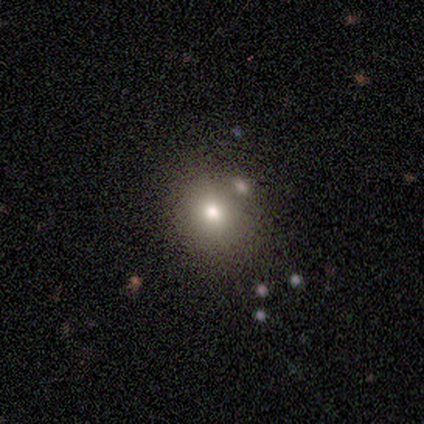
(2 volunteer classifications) Overall: smooth (100%). How rounded: round (50%, tied with in between). Merging: none (50%, tied with minor disturbance).